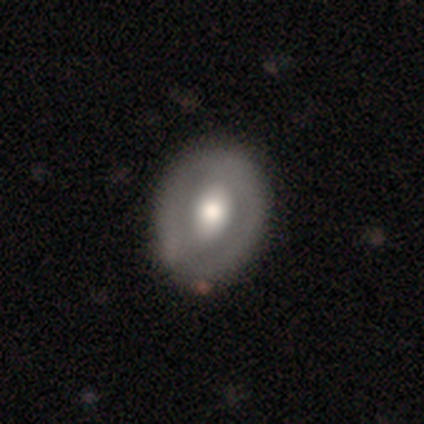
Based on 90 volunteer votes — Smooth or featured? 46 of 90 (51%) said smooth. How rounded? 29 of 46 (63%) said in between. Merging? 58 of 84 (69%) said none.